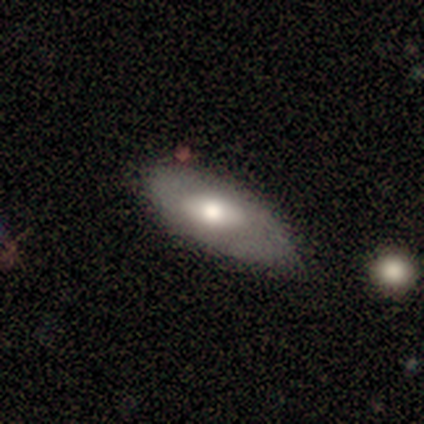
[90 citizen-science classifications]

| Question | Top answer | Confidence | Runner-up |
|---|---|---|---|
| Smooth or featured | smooth | 56% | featured or disk (40%) |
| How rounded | in between | 88% | cigar-shaped (12%) |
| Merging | none | 48% | tied: minor disturbance (48%) |